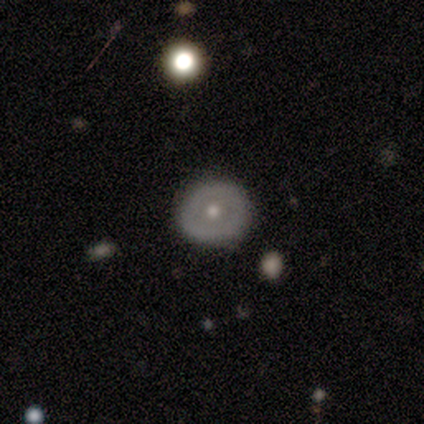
Smooth or featured? 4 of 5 (80%) said featured or disk. Edge-on disk? 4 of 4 (100%) said no. Bar? 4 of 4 (100%) said no. Spiral arms? 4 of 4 (100%) said no. Bulge size? 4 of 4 (100%) said moderate. Merging? 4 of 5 (80%) said none.